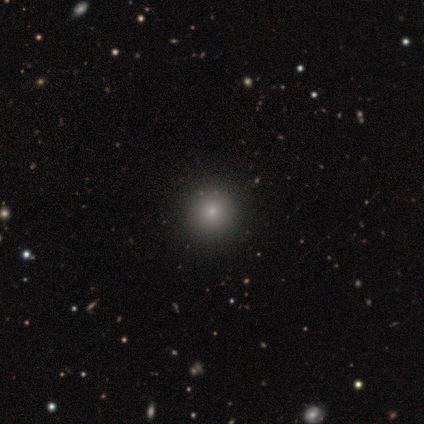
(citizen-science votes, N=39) Smooth or featured: smooth — 62% (star or artifact — 31%)
How rounded: round — 100%
Merging: none — 96% (merger — 4%)